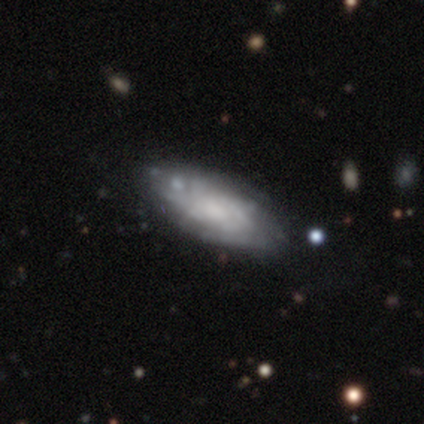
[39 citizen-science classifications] Overall: featured or disk (64%; smooth 28%). Edge-on disk: no (76%). Bar: no (74%). Spiral arms: yes (74%). Spiral arm count: can't tell (71%). Spiral winding: tight (57%; medium 36%). Bulge size: moderate (47%; none 42%). Merging: none (75%).